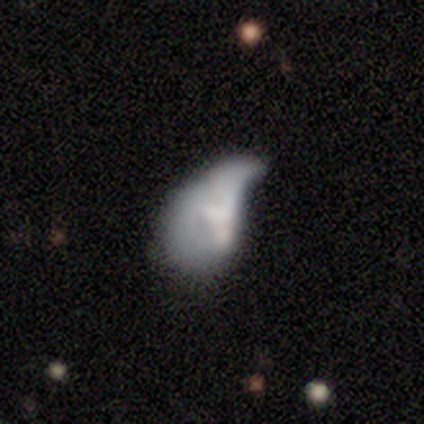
Smooth or featured? 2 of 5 (40%, tied with featured or disk) said smooth. How rounded? 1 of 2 (50%, tied with in between) said round. Merging? 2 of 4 (50%) said major disturbance.